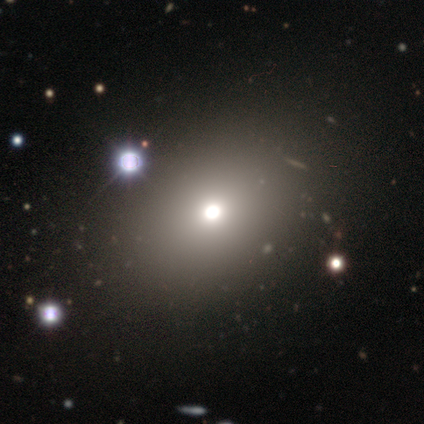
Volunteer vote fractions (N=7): Smooth or featured? 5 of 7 (71%) said smooth. How rounded? 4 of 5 (80%) said round. Merging? 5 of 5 (100%) said none.